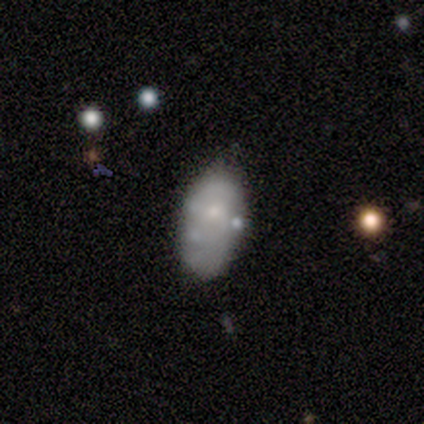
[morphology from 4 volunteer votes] This appears to be a smooth galaxy with no disk features (75%) that is in between round and cigar-shaped (100%). Merging: none (100%).